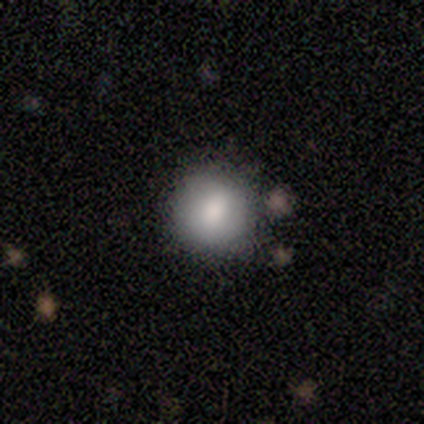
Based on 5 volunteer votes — Smooth or featured? smooth (80%)
How rounded? round (100%)
Merging? none (80%)